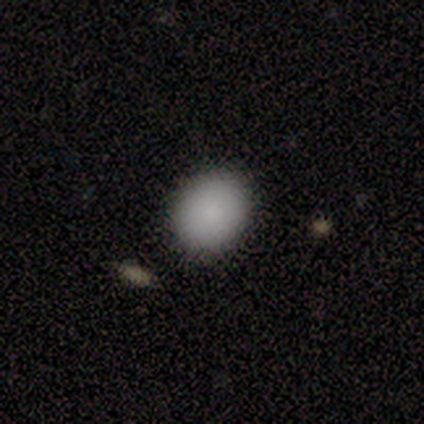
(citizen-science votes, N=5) Smooth or featured?
  - smooth: 100% *
  - featured or disk: 0%
  - star or artifact: 0%
How rounded?
  - in between: 60% *
  - round: 40%
  - cigar-shaped: 0%
Merging?
  - none: 80% *
  - minor disturbance: 20%
  - major disturbance: 0%
  - merger: 0%